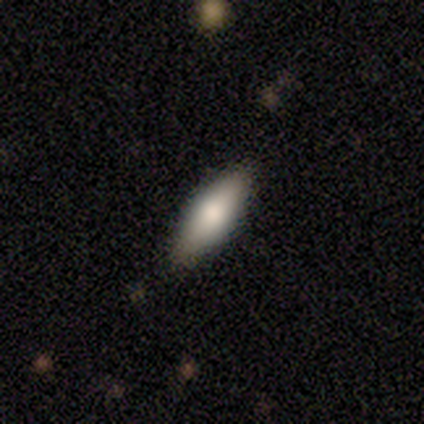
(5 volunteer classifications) Volunteers were most divided on "how rounded": in between: 75%, round: 25%, cigar-shaped: 0%. More confident: smooth or featured — smooth (80%); merging — none (80%).